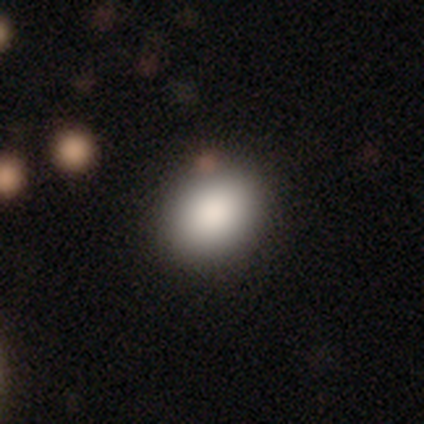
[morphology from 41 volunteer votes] smooth-or-featured: smooth: 78% | featured or disk: 12% | star or artifact: 10%
  how-rounded: round: 50% (tied) | in between: 50% (tied) | cigar-shaped: 0%
  merging: none: 81% | minor disturbance: 11% | merger: 8% | major disturbance: 0%